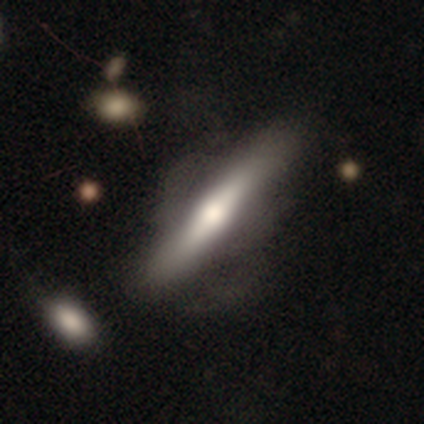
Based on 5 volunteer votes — This appears to be a featured or disk galaxy (100%) viewed edge-on (60%) with a rounded central bulge (67%). Merging: major disturbance (40%).